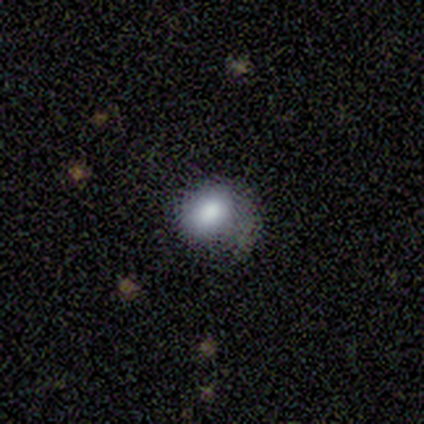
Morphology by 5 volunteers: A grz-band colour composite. It shows a smooth galaxy with no disk features (80%) that is round (100%). Merging: none (75%).